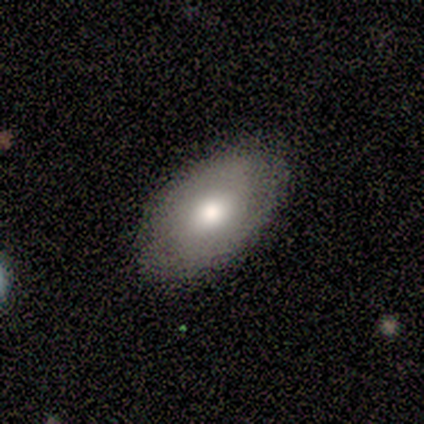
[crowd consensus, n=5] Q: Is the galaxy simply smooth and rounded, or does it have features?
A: smooth — 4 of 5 (80%).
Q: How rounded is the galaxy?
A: in between — 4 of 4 (100%).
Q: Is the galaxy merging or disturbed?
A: none — 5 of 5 (100%).